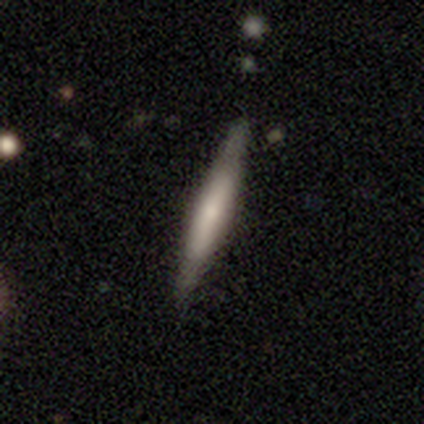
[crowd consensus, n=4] A smooth galaxy with no disk features (75%) that is cigar-shaped (67%).

Vote fractions:
- Smooth or featured? smooth: 75% / featured or disk: 25% / star or artifact: 0%
- How rounded? cigar-shaped: 67% / in between: 33% / round: 0%
- Merging? none: 75% / minor disturbance: 25% / major disturbance: 0% / merger: 0%